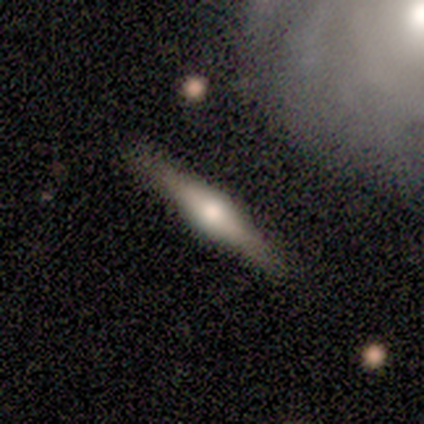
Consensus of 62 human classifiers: Morphology: type=featured or disk (69%); edge-on=yes (95%); edge-on bulge=rounded (83%); merging=none (81%).